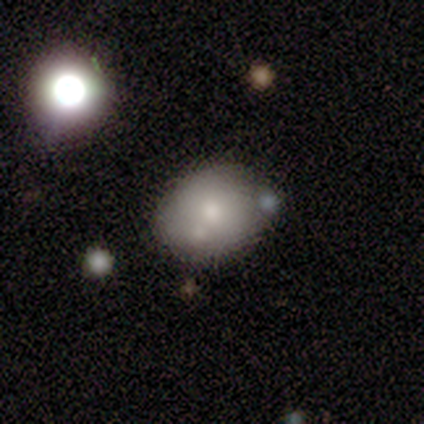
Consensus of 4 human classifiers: smooth 75%, featured or disk 25%, star or artifact 0%. Down the decision tree: how rounded — in between (100%); merging — none (50%).